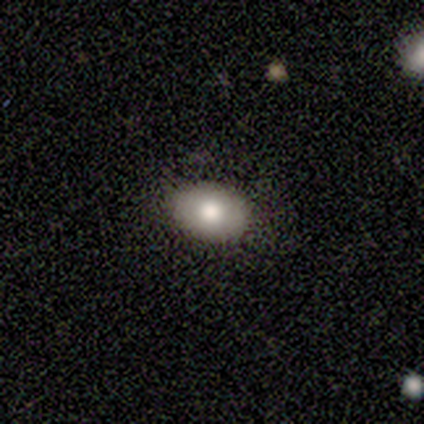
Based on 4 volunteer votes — Overall: smooth (100%). How rounded: in between (75%). Merging: none (100%).